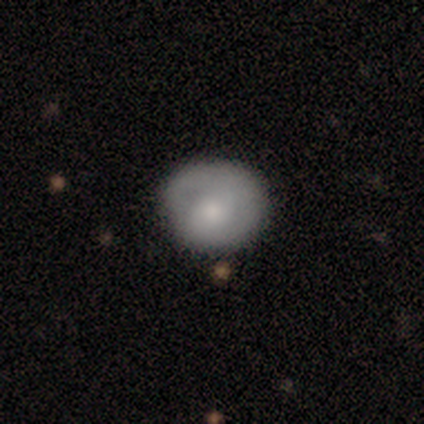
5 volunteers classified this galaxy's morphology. Volunteers were most divided on "smooth or featured": smooth: 80%, featured or disk: 20%, star or artifact: 0%. More confident: how rounded — round (100%); merging — none (80%).